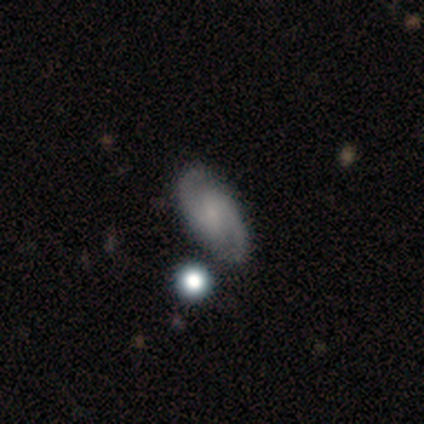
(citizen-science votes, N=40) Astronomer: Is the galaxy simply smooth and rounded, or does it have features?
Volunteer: featured or disk — 80%.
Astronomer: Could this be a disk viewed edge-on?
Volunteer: no — 97%.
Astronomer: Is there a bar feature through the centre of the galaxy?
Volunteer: weak — 48% (runner-up: no, 32%).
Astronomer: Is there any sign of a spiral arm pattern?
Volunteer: yes — 100%.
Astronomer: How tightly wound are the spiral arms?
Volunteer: medium — 52% (runner-up: tight, 29%).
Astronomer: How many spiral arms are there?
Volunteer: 2 — 97%.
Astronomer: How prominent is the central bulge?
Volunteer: small — 48% (runner-up: none, 32%).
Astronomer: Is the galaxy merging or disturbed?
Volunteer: none — 92%.